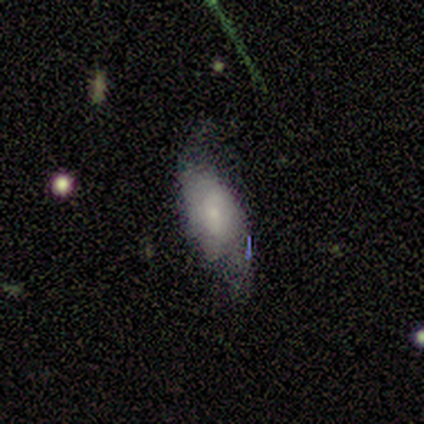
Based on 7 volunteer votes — smooth-or-featured: smooth: 86% | featured or disk: 14% | star or artifact: 0%
  how-rounded: in between: 83% | cigar-shaped: 17% | round: 0%
  merging: none: 43% (tied) | minor disturbance: 43% (tied) | major disturbance: 14% | merger: 0%